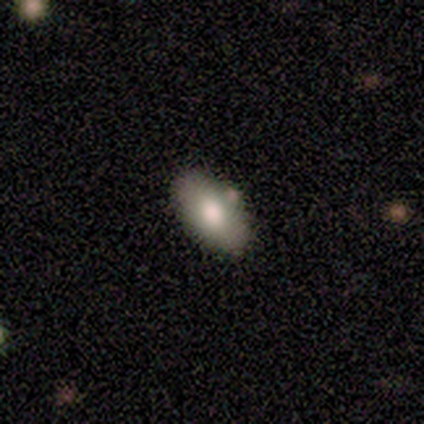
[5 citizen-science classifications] smooth_or_featured: smooth (p=0.60) [alt: featured or disk p=0.20]
how_rounded: in between (p=1.00)
merging: none (p=0.75) [alt: merger p=0.25]